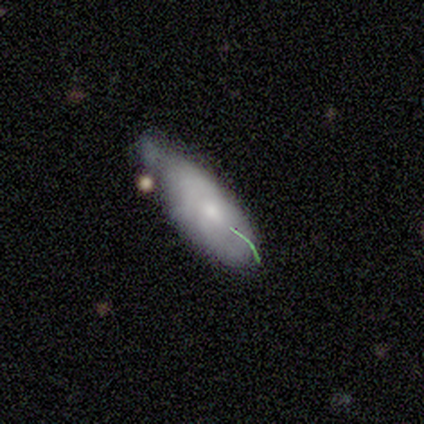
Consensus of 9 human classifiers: This appears to be a smooth galaxy with no disk features (78%) that is cigar-shaped (71%). Merging: minor disturbance (75%).